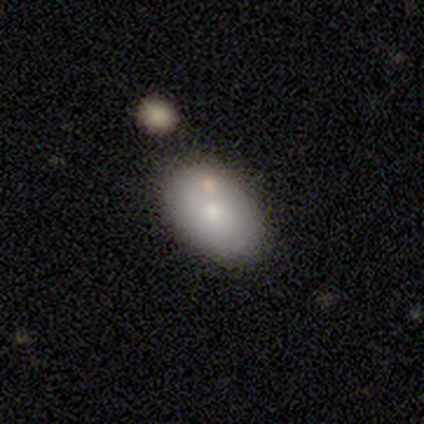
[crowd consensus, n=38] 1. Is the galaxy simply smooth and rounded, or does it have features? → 63% smooth, 26% featured or disk, 11% star or artifact.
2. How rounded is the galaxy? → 96% in between, 4% round, 0% cigar-shaped.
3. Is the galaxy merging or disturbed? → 82% none, 9% minor disturbance, 9% merger, 0% major disturbance.